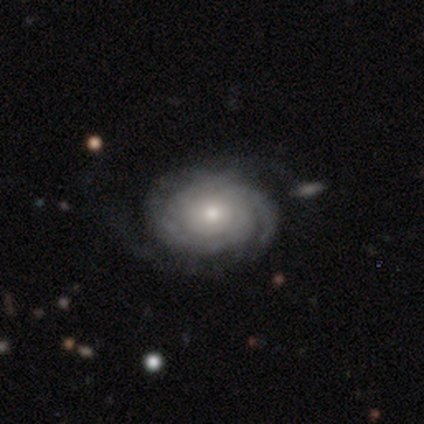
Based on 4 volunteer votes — Overall: featured or disk (100%). Edge-on disk: no (100%). Bar: no (75%). Spiral arms: yes (100%). Spiral arm count: 1 (25%, tied with 2, more than 4 and can't tell). Spiral winding: tight (75%). Bulge size: moderate (75%). Merging: none (75%).